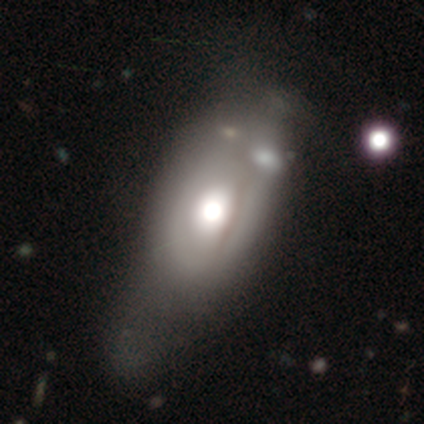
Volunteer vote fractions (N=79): Smooth or featured? featured or disk (47%)
Edge-on disk? no (84%)
Bar? no (97%)
Spiral arms? no (97%)
Bulge size? moderate (55%)
Merging? minor disturbance (19%)